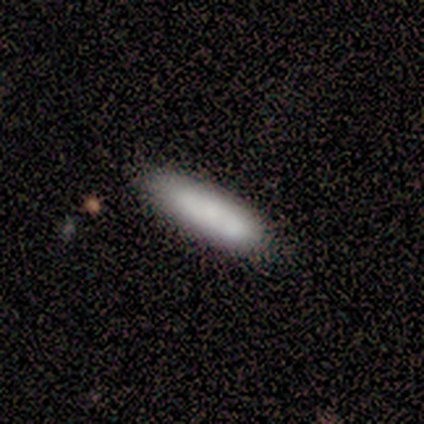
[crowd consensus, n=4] Morphology: type=smooth (75%); roundness=cigar-shaped (67%); merging=none (100%).